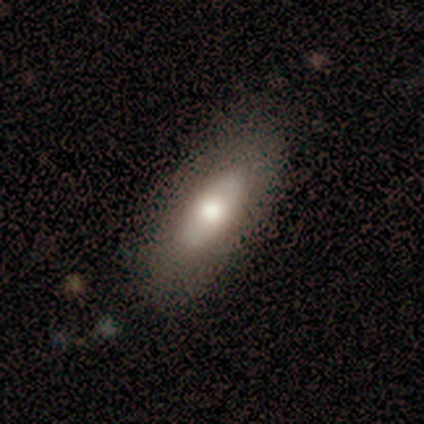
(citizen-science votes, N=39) smooth 59%, featured or disk 28%, star or artifact 13%. Down the decision tree: how rounded — in between (87%); merging — none (91%).